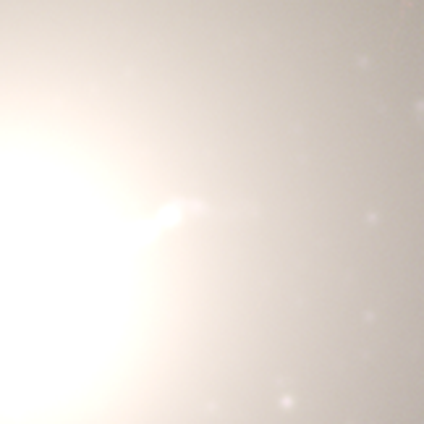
A star or artifact, not a galaxy (100%).